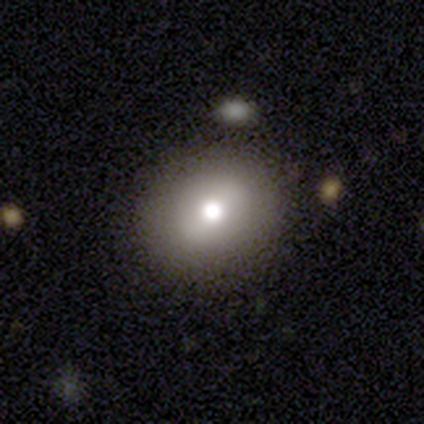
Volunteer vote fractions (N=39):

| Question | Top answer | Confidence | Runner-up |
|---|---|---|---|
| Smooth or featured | smooth | 69% | featured or disk (21%) |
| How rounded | round | 78% | in between (22%) |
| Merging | none | 89% | minor disturbance (9%) |